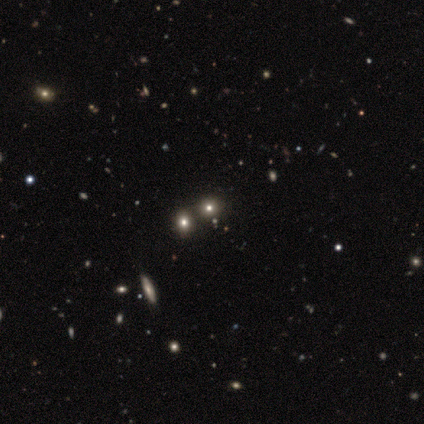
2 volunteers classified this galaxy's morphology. This is possibly a smooth galaxy (50%, tied with star or artifact). How rounded: clearly round (100%). Merging: clearly none (100%).